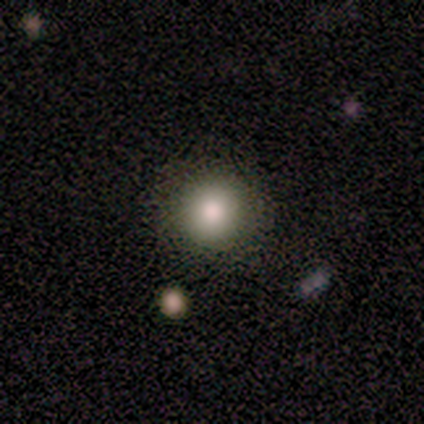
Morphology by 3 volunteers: type=smooth (100%); roundness=round (100%); merging=none (67%).